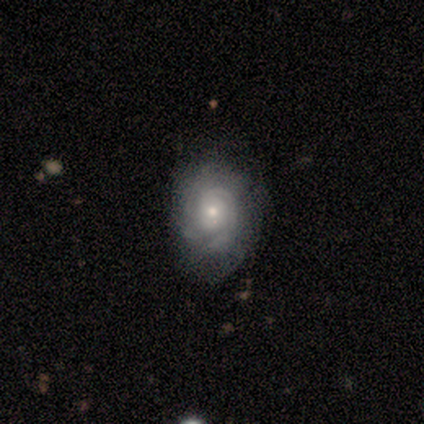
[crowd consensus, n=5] Q: Smooth or featured?
A: featured or disk (80%); runner-up: smooth (20%)
Q: Edge-on disk?
A: no (100%)
Q: Bar?
A: no (100%)
Q: Spiral arms?
A: yes (100%)
Q: Spiral winding?
A: tight (50%); tied with: medium (50%)
Q: Spiral arm count?
A: can't tell (50%); runner-up: 2 (25%)
Q: Bulge size?
A: small (75%); runner-up: moderate (25%)
Q: Merging?
A: none (60%); runner-up: minor disturbance (20%)